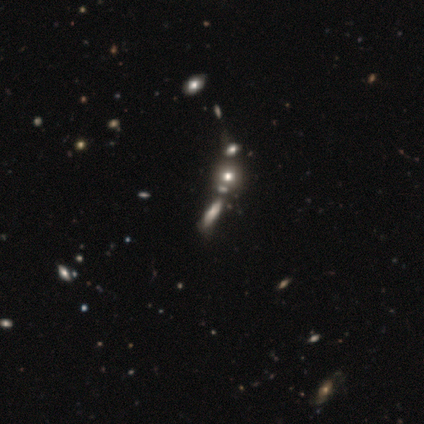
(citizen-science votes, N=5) Smooth or featured? star or artifact (60%)